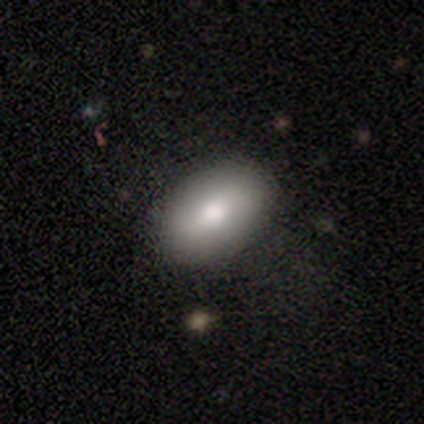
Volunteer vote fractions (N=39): smooth 79%, featured or disk 18%, star or artifact 3%. Down the decision tree: how rounded — in between (87%); merging — none (89%).